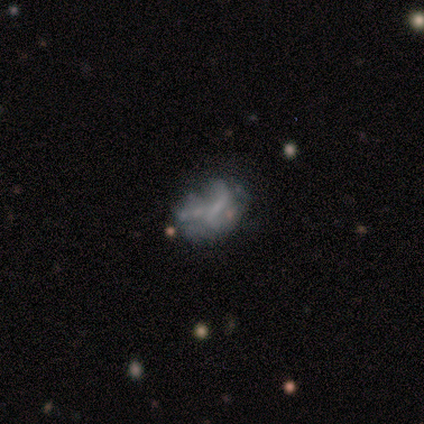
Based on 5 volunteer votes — Volunteers were most divided on "bar" (2-way tie): weak: 50%, no: 50%, strong: 0%; "merging" (2-way tie): none: 50%, major disturbance: 50%, minor disturbance: 0%, merger: 0%. More confident: edge-on disk — no (100%); spiral arms — no (100%); bulge size — none (100%); smooth or featured — featured or disk (80%).